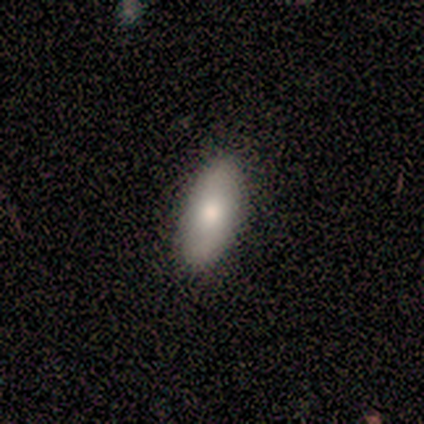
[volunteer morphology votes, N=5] smooth_or_featured: smooth (p=0.80) [alt: featured or disk p=0.20]
how_rounded: in between (p=1.00)
merging: none (p=1.00)